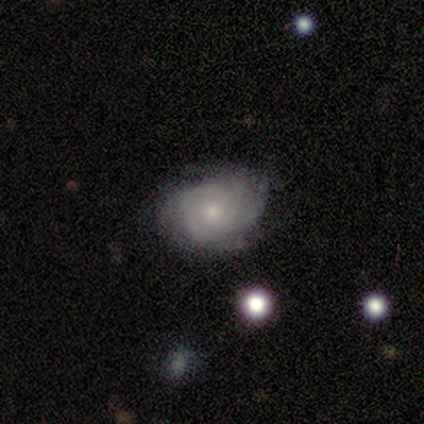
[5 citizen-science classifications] Overall: featured or disk (60%; smooth 40%). Edge-on disk: no (100%). Bar: weak (67%; no 33%). Spiral arms: yes (100%). Spiral arm count: can't tell (100%). Spiral winding: tight (67%; medium 33%). Bulge size: large (33%, tied with moderate and small). Merging: none (60%; minor disturbance 40%).